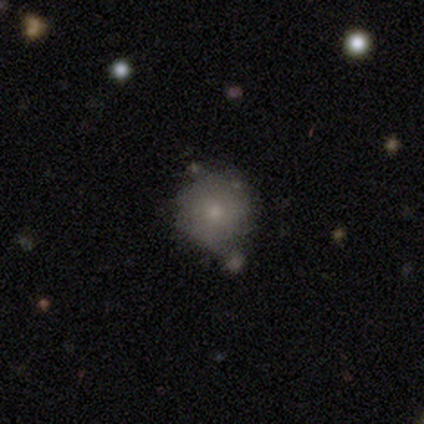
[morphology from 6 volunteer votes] A smooth galaxy with no disk features (50%) that is round (100%). Merging: none (75%).